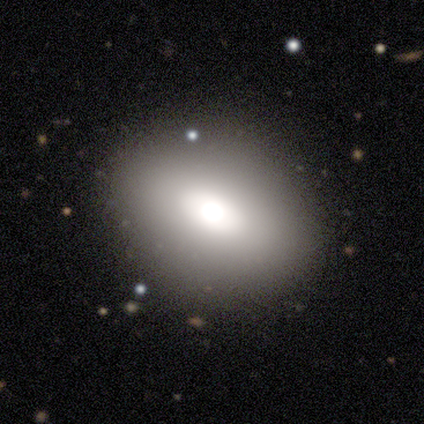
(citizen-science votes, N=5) A smooth galaxy with no disk features (100%) that is in between round and cigar-shaped (100%).

Vote fractions:
- Smooth or featured? smooth: 100% / featured or disk: 0% / star or artifact: 0%
- How rounded? in between: 100% / round: 0% / cigar-shaped: 0%
- Merging? none: 80% / minor disturbance: 20% / major disturbance: 0% / merger: 0%